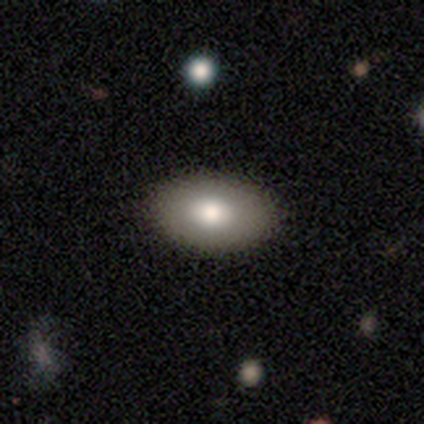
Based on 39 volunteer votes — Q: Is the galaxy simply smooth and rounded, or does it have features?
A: smooth — 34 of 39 (87%).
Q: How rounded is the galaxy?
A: in between — 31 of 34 (91%).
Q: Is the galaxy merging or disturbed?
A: none — 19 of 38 (50%).